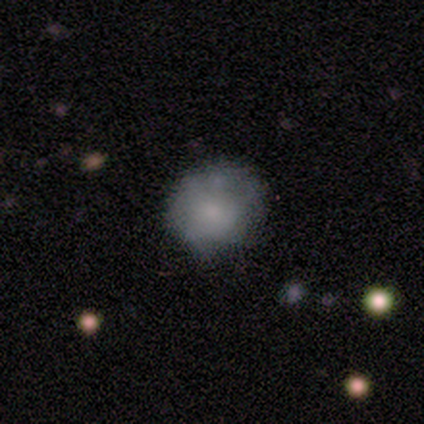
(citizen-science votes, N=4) Smooth or featured?
  - smooth: 50% *
  - featured or disk: 25%
  - star or artifact: 25%
How rounded?
  - round: 50% * (tied)
  - in between: 50% * (tied)
  - cigar-shaped: 0%
Merging?
  - none: 67% *
  - minor disturbance: 33%
  - major disturbance: 0%
  - merger: 0%